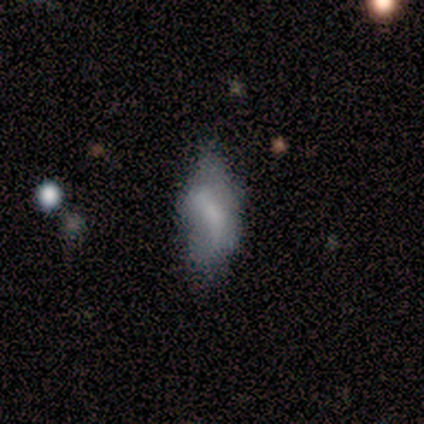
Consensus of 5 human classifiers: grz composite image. It shows a smooth galaxy with no disk features (40%, tied with star or artifact) that is in between round and cigar-shaped (100%). Merging: minor disturbance (100%).